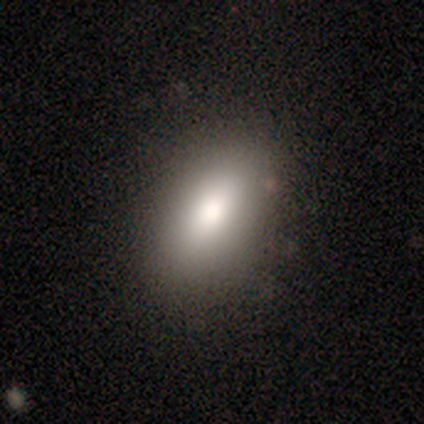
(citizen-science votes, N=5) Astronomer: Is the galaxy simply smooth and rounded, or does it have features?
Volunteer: smooth — 80%.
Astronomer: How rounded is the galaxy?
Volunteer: in between — 100%.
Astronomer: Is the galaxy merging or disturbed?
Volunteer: none — 100%.